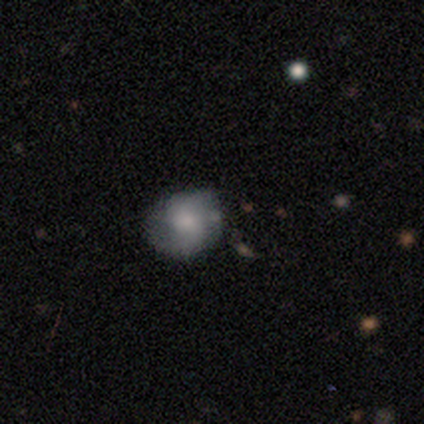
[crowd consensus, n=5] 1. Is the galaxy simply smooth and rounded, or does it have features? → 60% smooth, 40% featured or disk, 0% star or artifact.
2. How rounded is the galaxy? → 67% in between, 33% round, 0% cigar-shaped.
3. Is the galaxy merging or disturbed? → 60% minor disturbance, 40% none, 0% major disturbance, 0% merger.